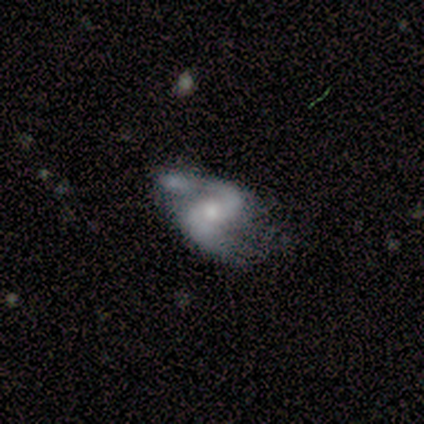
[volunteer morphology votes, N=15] featured or disk 87%, smooth 7%, star or artifact 7%. Down the decision tree: edge-on disk — no (100%); bar — weak (54%); spiral arms — yes (100%); spiral arm count — 2 (85%); spiral winding — loose (62%); bulge size — moderate (46%); merging — minor disturbance (64%).